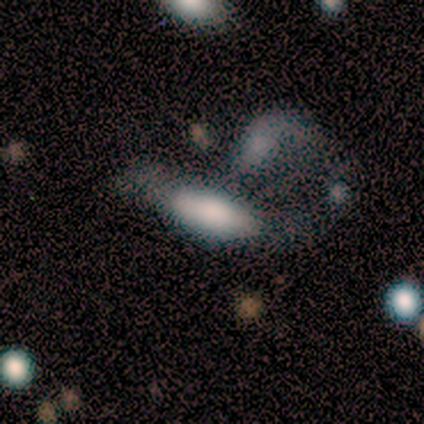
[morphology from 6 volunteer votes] This appears to be a smooth galaxy with no disk features (50%) that is in between round and cigar-shaped (100%). Merging: major disturbance (40%, tied with merger).